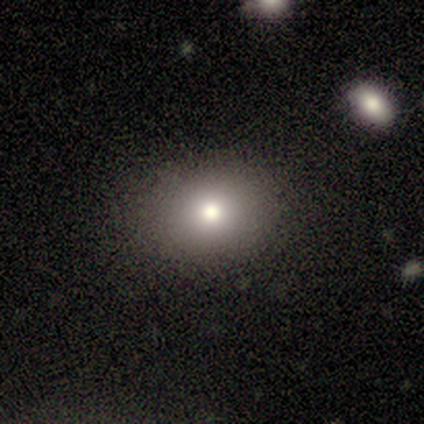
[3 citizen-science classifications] This appears to be a smooth galaxy with no disk features (67%) that is round (50%, tied with in between). Merging: none (50%, tied with minor disturbance).